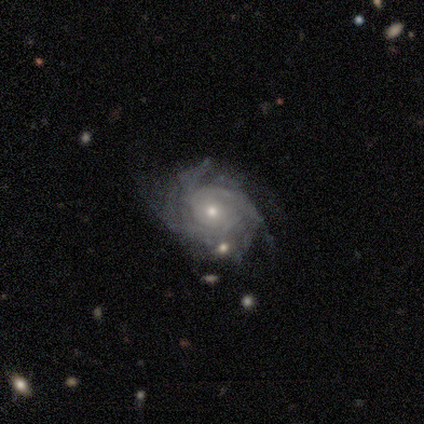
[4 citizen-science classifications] Smooth or featured? featured or disk (75%)
Edge-on disk? no (100%)
Bar? no (67%)
Spiral arms? yes (100%)
Spiral winding? tight (33%, tied with medium and loose)
Spiral arm count? can't tell (67%)
Bulge size? moderate (67%)
Merging? none (75%)